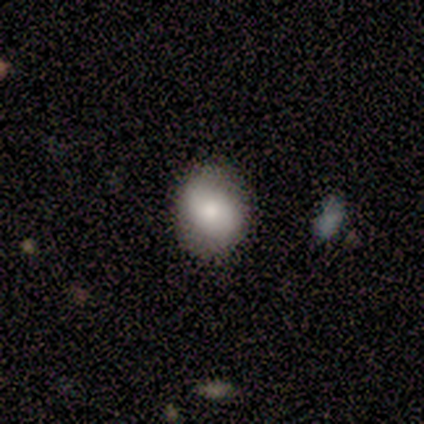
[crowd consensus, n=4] smooth 75%, featured or disk 25%, star or artifact 0%. Down the decision tree: how rounded — round (67%); merging — none (100%).